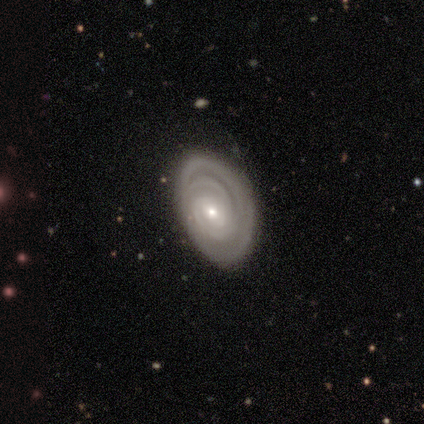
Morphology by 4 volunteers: This is likely a featured or disk galaxy (75%). It is clearly not viewed edge-on (100%). Bar: likely weak (67%). Spiral arm pattern: clearly yes (100%). Spiral arm count: clearly 2 (100%). Spiral winding: likely tight (67%). Central bulge: likely moderate (67%). Merging: likely none (67%).